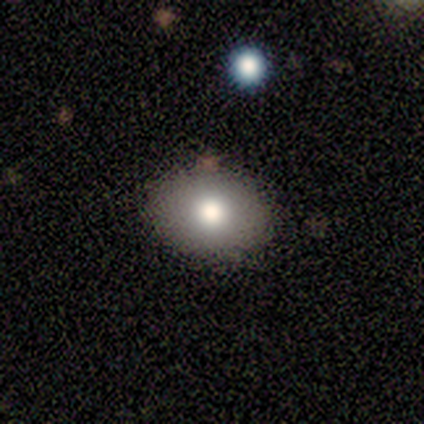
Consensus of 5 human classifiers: This appears to be a smooth galaxy with no disk features (80%) that is in between round and cigar-shaped (75%). Merging: none (100%).